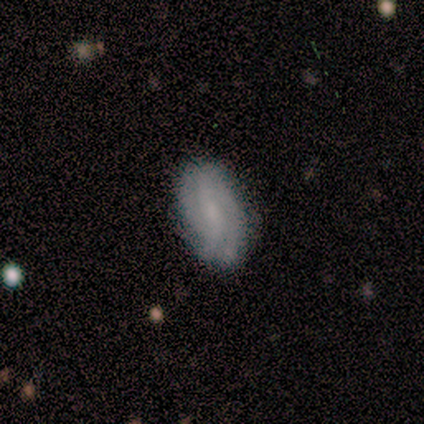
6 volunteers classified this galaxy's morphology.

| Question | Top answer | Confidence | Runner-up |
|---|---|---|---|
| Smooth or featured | featured or disk | 67% | smooth (33%) |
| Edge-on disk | no | 100% | — |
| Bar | weak | 75% | no (25%) |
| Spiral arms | yes | 100% | — |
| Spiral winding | tight | 50% | tied: medium (50%) |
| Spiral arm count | can't tell | 50% | 2 (25%) |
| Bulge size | moderate | 50% | tied: none (50%) |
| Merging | none | 83% | major disturbance (17%) |